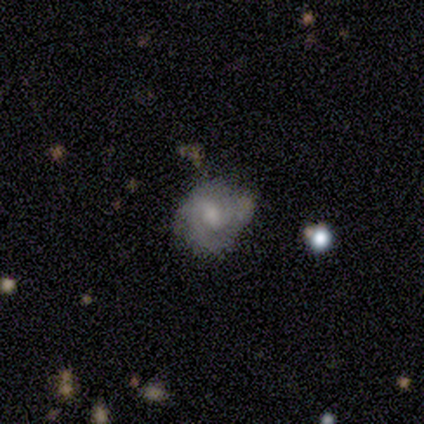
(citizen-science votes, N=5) smooth-or-featured: featured or disk: 100% | smooth: 0% | star or artifact: 0%
  disk-edge-on: no: 100% | yes: 0%
    bar: no: 60% | weak: 40% | strong: 0%
    has-spiral-arms: yes: 100% | no: 0%
      spiral-winding: tight: 80% | medium: 20% | loose: 0%
      spiral-arm-count: 3: 40% (tied) | can't tell: 40% (tied) | 1: 20% | 2: 0% | 4: 0% | more than 4: 0%
    bulge-size: moderate: 80% | small: 20% | dominant: 0% | large: 0% | none: 0%
  merging: none: 100% | minor disturbance: 0% | major disturbance: 0% | merger: 0%